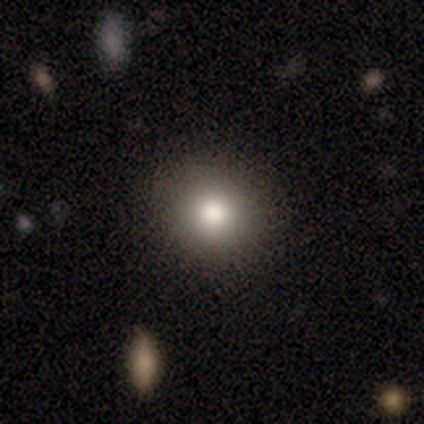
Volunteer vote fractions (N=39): smooth_or_featured: smooth (p=0.90) [alt: star or artifact p=0.08]
how_rounded: round (p=0.91) [alt: in between p=0.09]
merging: none (p=0.89) [alt: minor disturbance p=0.06]